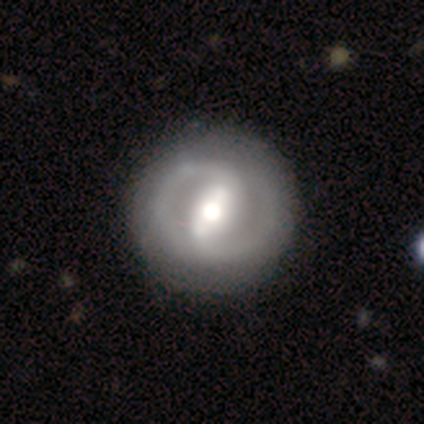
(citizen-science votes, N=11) Morphology: type=featured or disk (91%); edge-on=no (100%); bar=strong (90%); spiral arms=yes (100%); winding=tight (70%); arm count=2 (100%); bulge=moderate (70%); merging=none (90%).